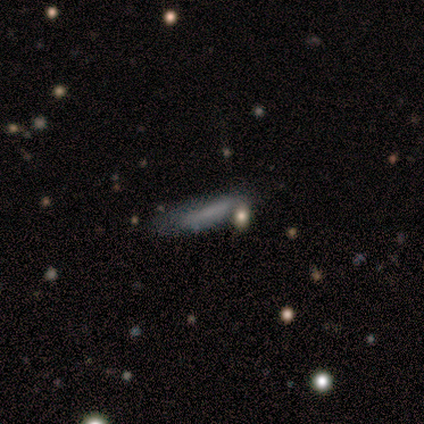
A smooth galaxy with no disk features (60%) that is cigar-shaped (100%).

Vote fractions:
- Smooth or featured? smooth: 60% / featured or disk: 40% / star or artifact: 0%
- How rounded? cigar-shaped: 100% / round: 0% / in between: 0%
- Merging? none: 100% / minor disturbance: 0% / major disturbance: 0% / merger: 0%